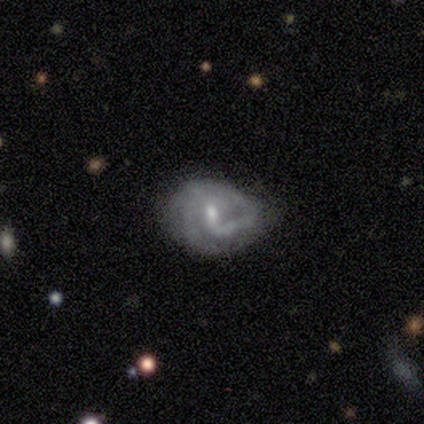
smooth-or-featured: featured or disk: 100% | smooth: 0% | star or artifact: 0%
  disk-edge-on: no: 100% | yes: 0%
    bar: weak: 100% | strong: 0% | no: 0%
    has-spiral-arms: yes: 50% (tied) | no: 50% (tied)
      spiral-winding: tight: 50% (tied) | medium: 50% (tied) | loose: 0%
      spiral-arm-count: 2: 100% | 1: 0% | 3: 0% | 4: 0% | more than 4: 0% | can't tell: 0%
    bulge-size: moderate: 50% | small: 25% | none: 25% | dominant: 0% | large: 0%
  merging: none: 75% | minor disturbance: 25% | major disturbance: 0% | merger: 0%